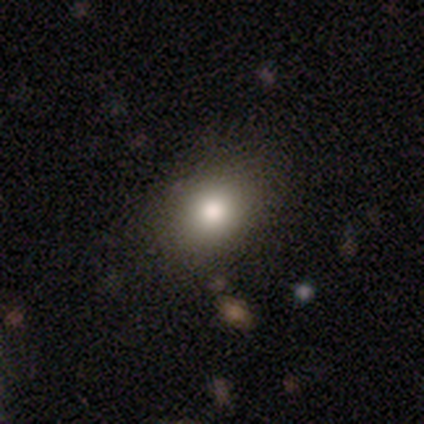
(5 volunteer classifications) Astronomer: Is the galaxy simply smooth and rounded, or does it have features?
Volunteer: smooth — 100%.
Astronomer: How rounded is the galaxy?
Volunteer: round — 60% (runner-up: in between, 40%).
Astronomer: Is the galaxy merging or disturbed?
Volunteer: none — 100%.